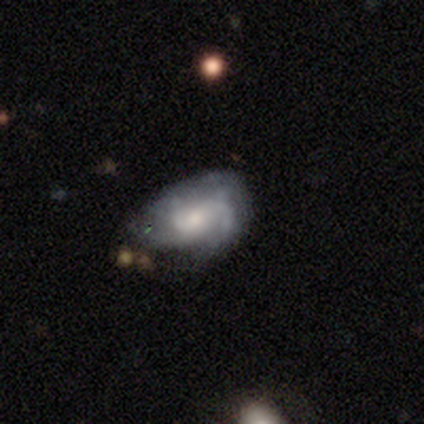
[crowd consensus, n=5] This appears to be a featured or disk galaxy (60%) with a weak bar (50%, tied with no), medium (100%) spiral arms (50%, tied with no) and a dominant central bulge (50%, tied with moderate). Merging: none (50%).